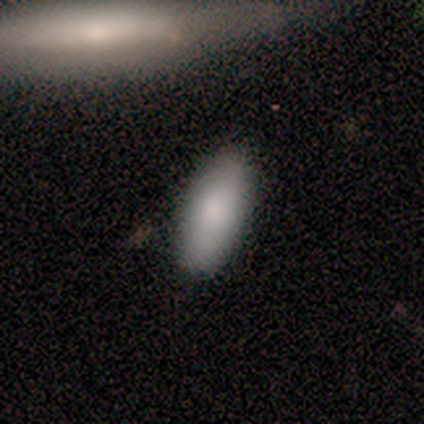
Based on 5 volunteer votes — smooth 80%, featured or disk 20%, star or artifact 0%. Down the decision tree: how rounded — in between (75%); merging — none (40%).